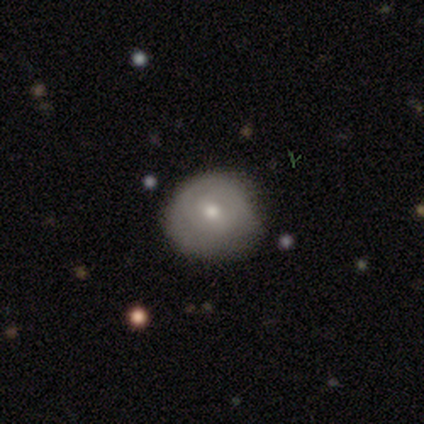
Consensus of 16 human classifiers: Smooth or featured?
  - smooth: 62% *
  - featured or disk: 38%
  - star or artifact: 0%
How rounded?
  - round: 100% *
  - in between: 0%
  - cigar-shaped: 0%
Merging?
  - none: 69% *
  - minor disturbance: 25%
  - major disturbance: 6%
  - merger: 0%